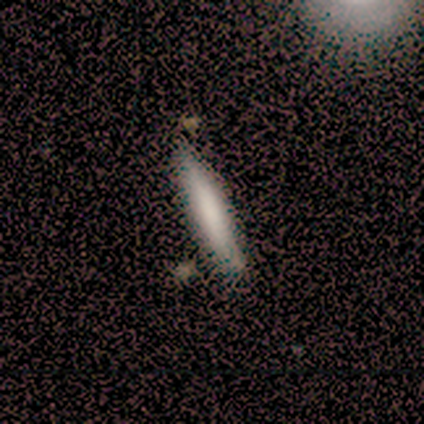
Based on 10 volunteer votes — This is clearly a smooth galaxy (100%). How rounded: clearly cigar-shaped (90%). Merging: likely none (70%).